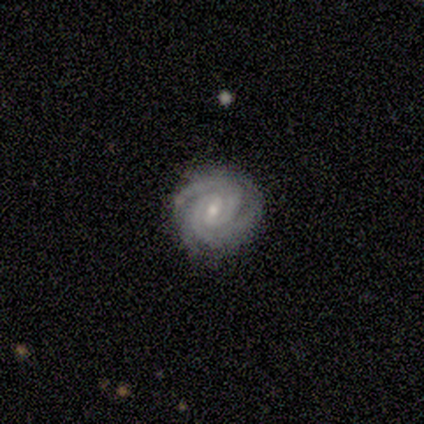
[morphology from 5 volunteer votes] Smooth or featured: featured or disk — 100%
Edge-on disk: no — 100%
Bar: weak — 60% (strong — 20%)
Spiral arms: yes — 100%
Spiral winding: tight — 100%
Spiral arm count: 3 — 60% (2 — 40%)
Bulge size: small — 100%
Merging: none — 80% (minor disturbance — 20%)